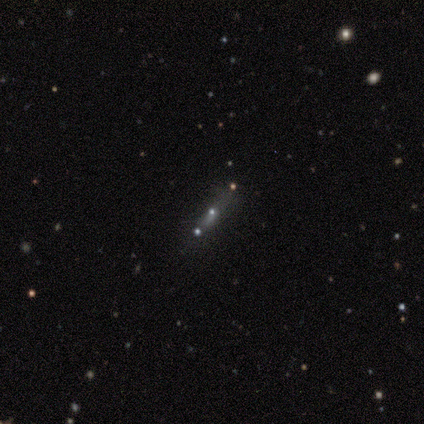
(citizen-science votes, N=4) Overall: smooth (50%; featured or disk 25%). How rounded: cigar-shaped (100%). Merging: none (67%; minor disturbance 33%).